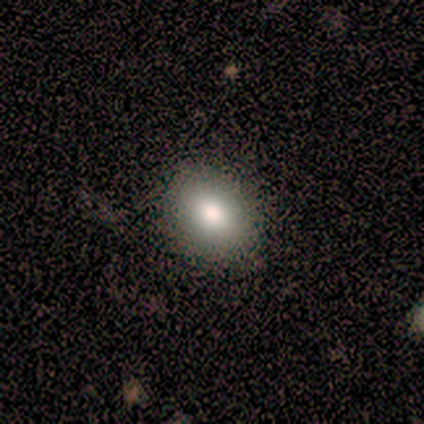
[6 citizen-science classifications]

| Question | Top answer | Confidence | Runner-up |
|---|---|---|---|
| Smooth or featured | smooth | 50% | featured or disk (33%) |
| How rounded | in between | 100% | — |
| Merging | none | 80% | minor disturbance (20%) |